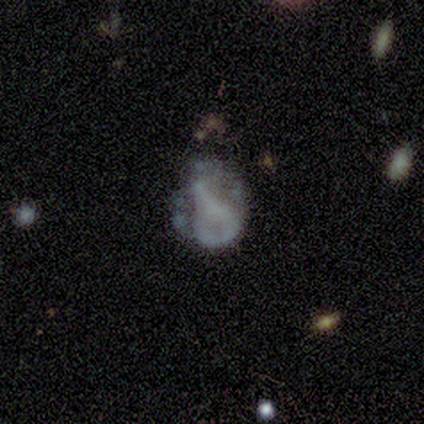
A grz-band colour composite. It shows a smooth galaxy with no disk features (60%) that is in between round and cigar-shaped (100%). Merging: major disturbance (60%).